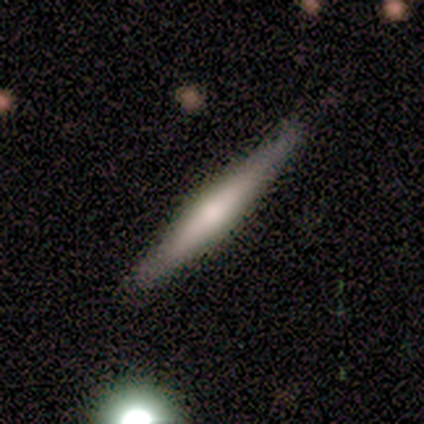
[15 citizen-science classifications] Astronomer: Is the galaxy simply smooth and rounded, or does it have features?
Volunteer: smooth — 67%.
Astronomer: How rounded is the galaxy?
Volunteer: cigar-shaped — 80%.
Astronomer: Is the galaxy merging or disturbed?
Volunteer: none — 80%.